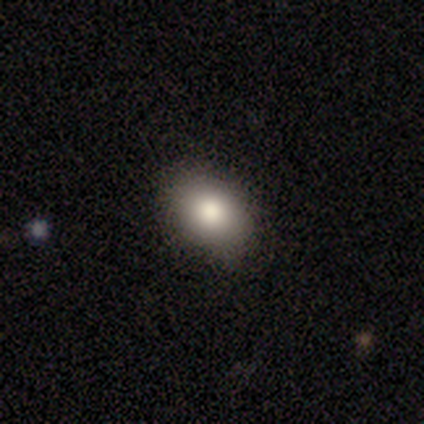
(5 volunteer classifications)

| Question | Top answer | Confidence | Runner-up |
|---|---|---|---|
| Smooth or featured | smooth | 100% | — |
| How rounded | in between | 80% | round (20%) |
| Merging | none | 60% | minor disturbance (20%) |